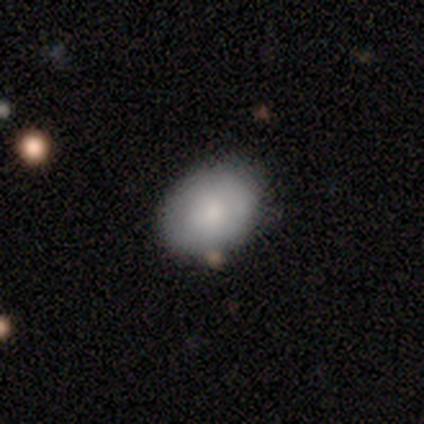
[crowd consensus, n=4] A smooth galaxy with no disk features (100%) that is in between round and cigar-shaped (75%). Merging: none (75%).